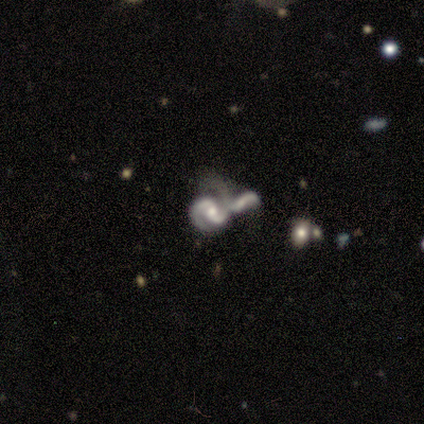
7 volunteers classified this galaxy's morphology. This appears to be a featured or disk galaxy (71%) with no bar (60%), 2 (100%) medium (80%) spiral arms (100%) and a small central bulge (80%). Merging: merger (83%).